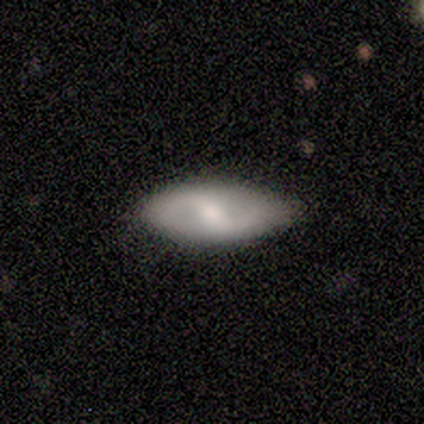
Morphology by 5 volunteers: A featured or disk galaxy (60%) with a weak bar (100%), 2 (100%) medium (67%) spiral arms (100%) and a small central bulge (67%). Merging: none (50%, tied with minor disturbance).